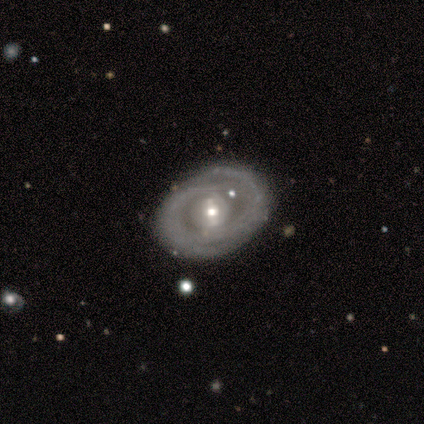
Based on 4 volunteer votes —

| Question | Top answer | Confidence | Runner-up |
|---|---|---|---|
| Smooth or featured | featured or disk | 75% | smooth (25%) |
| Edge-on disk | no | 100% | — |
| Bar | weak | 67% | no (33%) |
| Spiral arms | yes | 100% | — |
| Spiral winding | tight | 67% | medium (33%) |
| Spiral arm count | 2 | 67% | 1 (33%) |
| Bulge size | small | 67% | moderate (33%) |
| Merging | none | 100% | — |